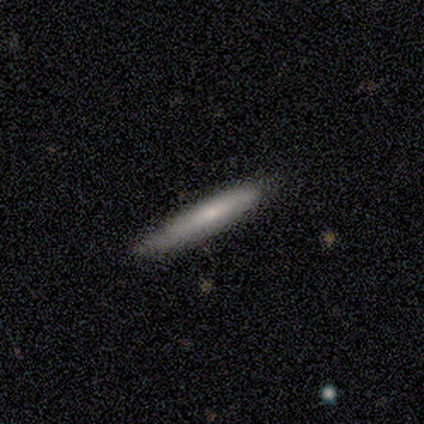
smooth-or-featured: smooth: 100% | featured or disk: 0% | star or artifact: 0%
  how-rounded: cigar-shaped: 80% | in between: 20% | round: 0%
  merging: none: 60% | minor disturbance: 40% | major disturbance: 0% | merger: 0%